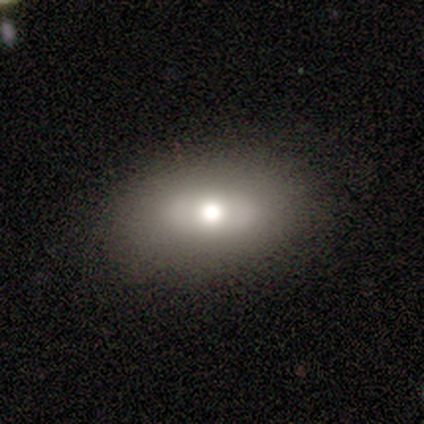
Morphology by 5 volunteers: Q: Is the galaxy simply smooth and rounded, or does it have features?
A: smooth — 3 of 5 (60%).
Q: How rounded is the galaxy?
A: in between — 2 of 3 (67%).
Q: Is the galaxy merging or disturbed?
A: none — 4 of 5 (80%).